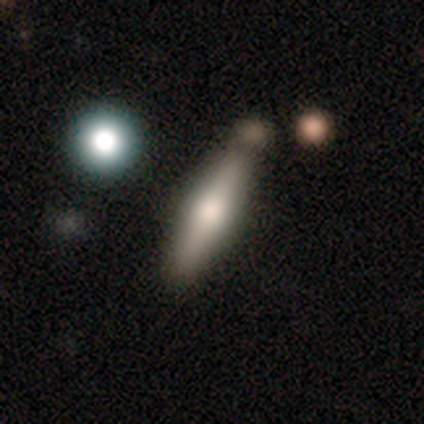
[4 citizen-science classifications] A smooth galaxy with no disk features (50%) that is cigar-shaped (100%). Merging: none (67%).